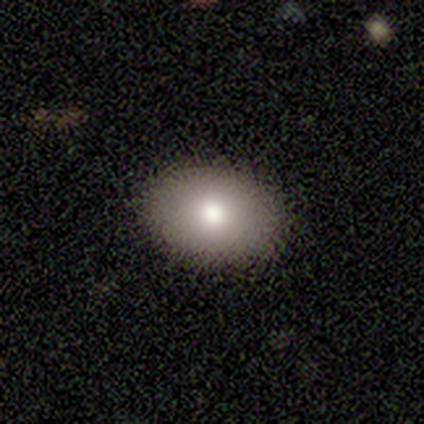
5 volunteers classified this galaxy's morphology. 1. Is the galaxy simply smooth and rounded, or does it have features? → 60% smooth, 40% featured or disk, 0% star or artifact.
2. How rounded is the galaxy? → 100% in between, 0% round, 0% cigar-shaped.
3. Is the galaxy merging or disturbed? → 100% none, 0% minor disturbance, 0% major disturbance, 0% merger.